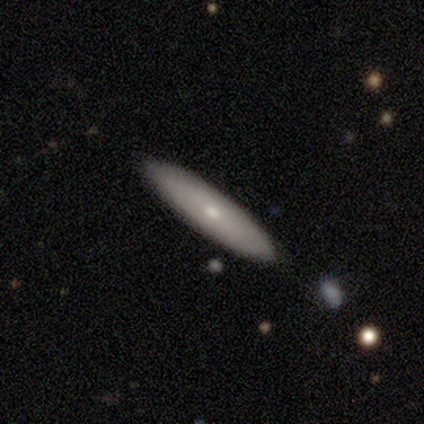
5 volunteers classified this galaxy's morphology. smooth-or-featured: featured or disk: 60% | smooth: 40% | star or artifact: 0%
  disk-edge-on: no: 67% | yes: 33%
    bar: no: 100% | strong: 0% | weak: 0%
    has-spiral-arms: no: 100% | yes: 0%
    bulge-size: small: 100% | dominant: 0% | large: 0% | moderate: 0% | none: 0%
  merging: none: 100% | minor disturbance: 0% | major disturbance: 0% | merger: 0%